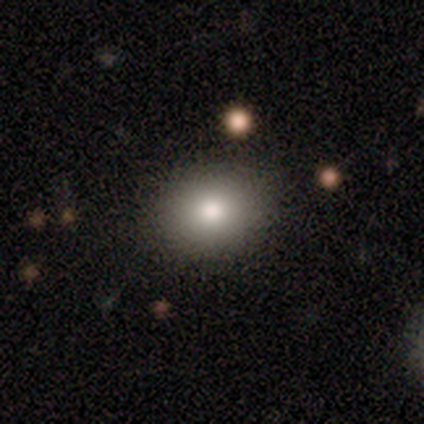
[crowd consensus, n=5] Smooth or featured? 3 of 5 (60%) said smooth. How rounded? 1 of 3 (33%, tied with in between and cigar-shaped) said round. Merging? 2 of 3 (67%) said none.